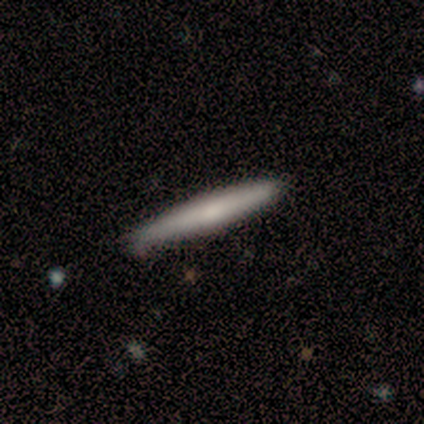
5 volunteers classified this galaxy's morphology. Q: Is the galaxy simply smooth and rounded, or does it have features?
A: smooth — 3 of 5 (60%).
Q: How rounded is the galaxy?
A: cigar-shaped — 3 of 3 (100%).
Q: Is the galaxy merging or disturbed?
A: none — 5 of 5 (100%).